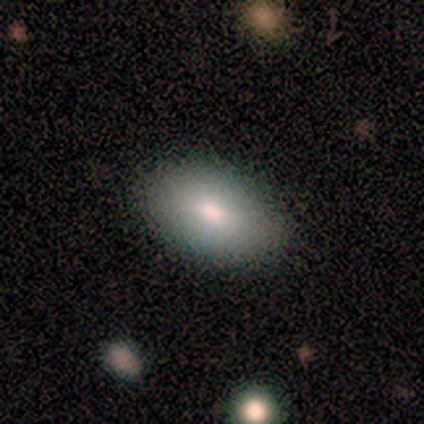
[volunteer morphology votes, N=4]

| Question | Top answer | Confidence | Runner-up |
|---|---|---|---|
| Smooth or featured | smooth | 75% | star or artifact (25%) |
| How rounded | in between | 100% | — |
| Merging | none | 100% | — |